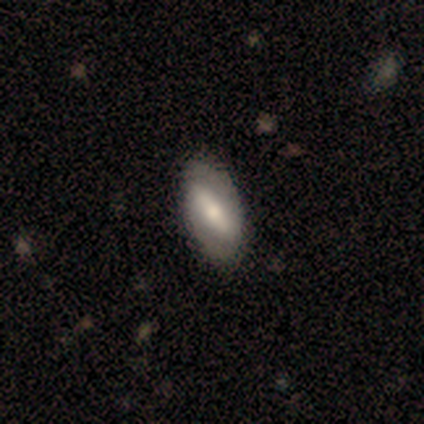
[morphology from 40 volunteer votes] Q: Smooth or featured?
A: featured or disk (57%); runner-up: smooth (40%)
Q: Edge-on disk?
A: no (96%); runner-up: yes (4%)
Q: Bar?
A: strong (64%); runner-up: weak (27%)
Q: Spiral arms?
A: yes (55%); runner-up: no (45%)
Q: Spiral winding?
A: tight (50%); runner-up: loose (33%)
Q: Spiral arm count?
A: 2 (100%)
Q: Bulge size?
A: moderate (50%); runner-up: small (36%)
Q: Merging?
A: none (59%); runner-up: minor disturbance (8%)